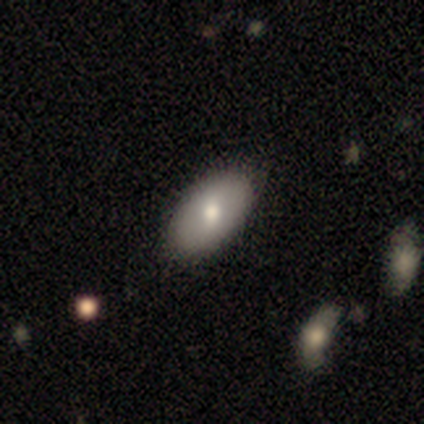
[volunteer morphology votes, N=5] Q: Smooth or featured?
A: smooth (80%); runner-up: featured or disk (20%)
Q: How rounded?
A: in between (100%)
Q: Merging?
A: none (80%); runner-up: minor disturbance (20%)